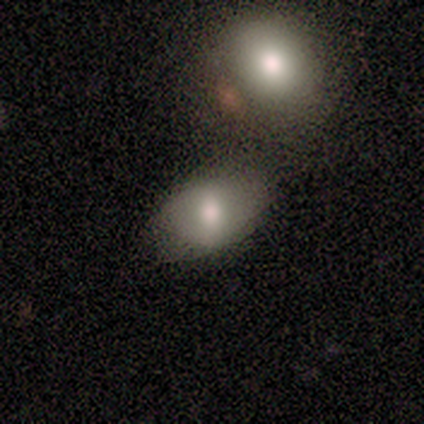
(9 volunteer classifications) Morphology: type=smooth (67%); roundness=in between (100%); merging=none (44%).